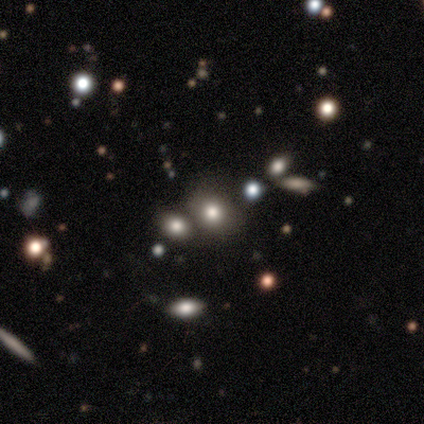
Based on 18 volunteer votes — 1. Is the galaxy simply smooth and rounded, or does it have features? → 67% smooth, 28% star or artifact, 6% featured or disk.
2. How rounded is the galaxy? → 58% in between, 42% round, 0% cigar-shaped.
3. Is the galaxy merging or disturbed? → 69% none, 15% minor disturbance, 8% major disturbance, 8% merger.